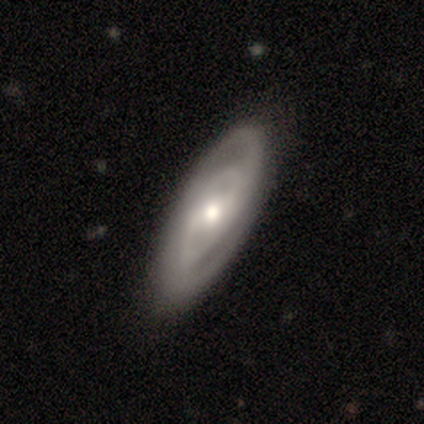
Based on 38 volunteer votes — featured or disk 84%, smooth 13%, star or artifact 3%. Down the decision tree: edge-on disk — no (97%); bar — weak (52%); spiral arms — yes (97%); spiral arm count — 2 (73%); spiral winding — tight (57%); bulge size — moderate (65%); merging — none (70%).